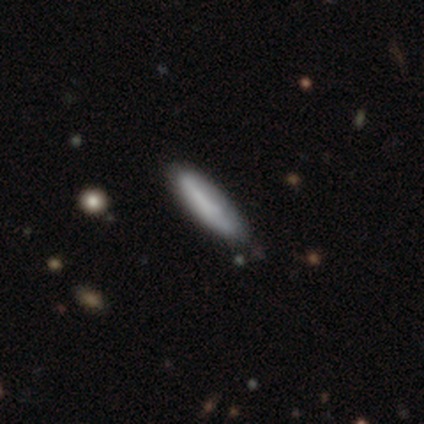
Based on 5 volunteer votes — This appears to be a smooth galaxy with no disk features (100%) that is cigar-shaped (100%). Merging: none (100%).